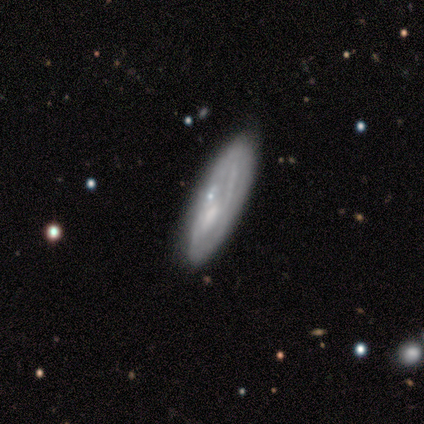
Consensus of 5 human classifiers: A smooth galaxy with no disk features (60%) that is cigar-shaped (100%). Merging: none (40%, tied with minor disturbance).